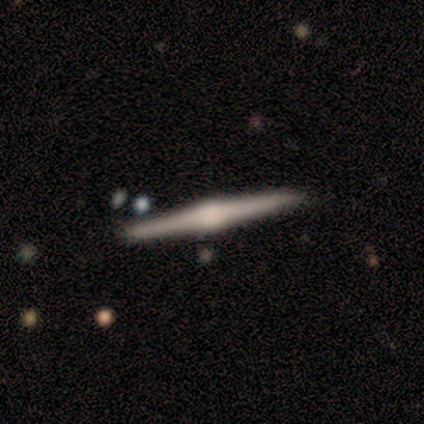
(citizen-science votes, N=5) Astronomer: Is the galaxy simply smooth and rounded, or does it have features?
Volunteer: featured or disk — 80%.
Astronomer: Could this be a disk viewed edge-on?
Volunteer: yes — 100%.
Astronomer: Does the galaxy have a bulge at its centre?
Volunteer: rounded — 100%.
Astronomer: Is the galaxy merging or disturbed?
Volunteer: none — 80%.